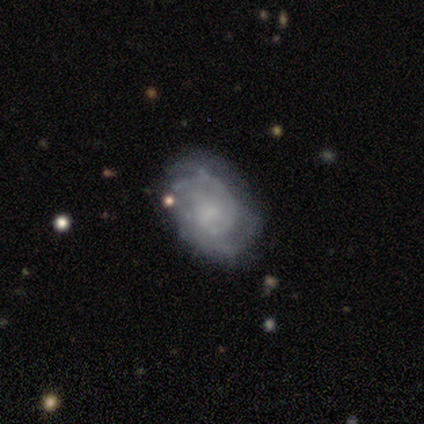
Smooth or featured: featured or disk — 80% (smooth — 15%)
Edge-on disk: no — 100%
Bar: no — 76% (weak — 24%)
Spiral arms: yes — 94% (no — 6%)
Spiral winding: tight — 61% (medium — 29%)
Spiral arm count: 2 — 35% (tied with can't tell — 35%)
Bulge size: small — 52% (none — 30%)
Merging: none — 49% (minor disturbance — 41%)